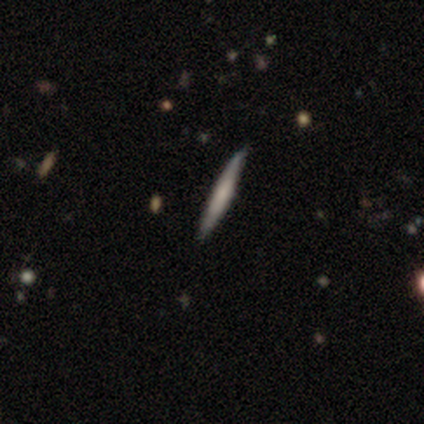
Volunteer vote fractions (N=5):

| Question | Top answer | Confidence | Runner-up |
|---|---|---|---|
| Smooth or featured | featured or disk | 60% | star or artifact (40%) |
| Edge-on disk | yes | 100% | — |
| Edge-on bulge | none | 67% | rounded (33%) |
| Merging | none | 100% | — |